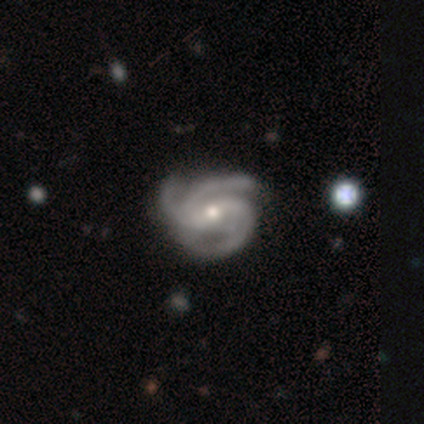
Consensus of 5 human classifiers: Overall: featured or disk (80%). Edge-on disk: no (100%). Bar: no (50%; strong 25%). Spiral arms: yes (100%). Spiral arm count: 3 (50%; 2 25%). Spiral winding: medium (50%; tight 25%). Bulge size: moderate (50%, tied with small). Merging: none (75%).